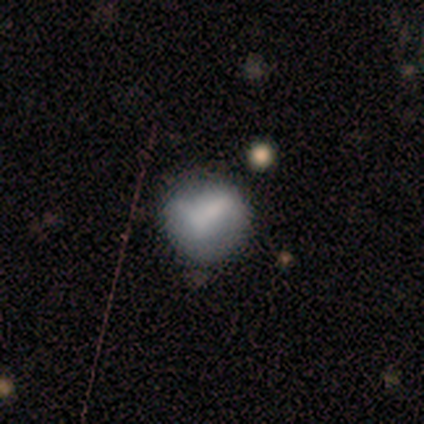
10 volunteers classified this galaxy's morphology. smooth-or-featured: smooth: 50% | featured or disk: 30% | star or artifact: 20%
  how-rounded: round: 80% | in between: 20% | cigar-shaped: 0%
  merging: none: 62% | minor disturbance: 25% | major disturbance: 12% | merger: 0%